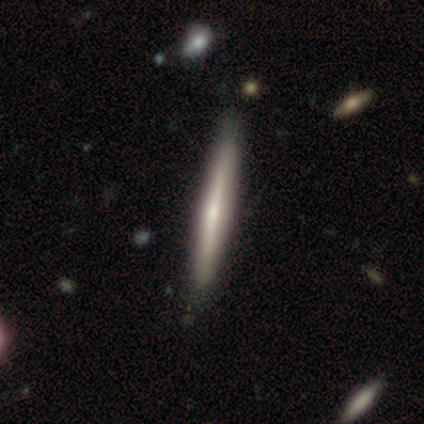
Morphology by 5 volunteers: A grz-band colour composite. It shows a featured or disk galaxy (60%) viewed edge-on (100%) with a rounded central bulge (67%). Merging: none (80%).